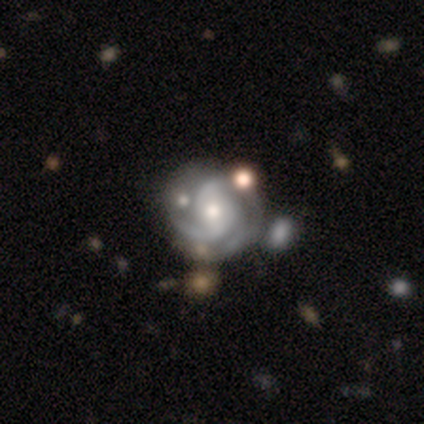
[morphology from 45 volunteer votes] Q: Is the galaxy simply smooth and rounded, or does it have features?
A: featured or disk — 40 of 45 (89%).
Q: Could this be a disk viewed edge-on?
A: no — 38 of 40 (95%).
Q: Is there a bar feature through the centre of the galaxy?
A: no — 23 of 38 (61%).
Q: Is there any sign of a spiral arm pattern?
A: yes — 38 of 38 (100%).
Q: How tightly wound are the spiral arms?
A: tight — 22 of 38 (58%).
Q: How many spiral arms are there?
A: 2 — 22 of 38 (58%).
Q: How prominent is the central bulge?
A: moderate — 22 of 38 (58%).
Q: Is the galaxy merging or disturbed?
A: none — 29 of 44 (66%).